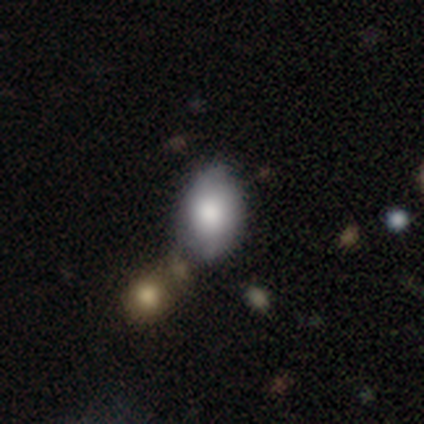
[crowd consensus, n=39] Smooth or featured: smooth — 74% (featured or disk — 23%)
How rounded: in between — 93% (round — 7%)
Merging: none — 47% (minor disturbance — 29%)